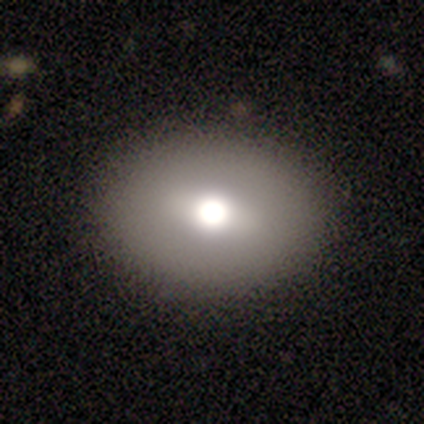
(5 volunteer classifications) smooth_or_featured: smooth (p=0.60) [alt: featured or disk p=0.40]
how_rounded: round (p=0.67) [alt: in between p=0.33]
merging: none (p=1.00)